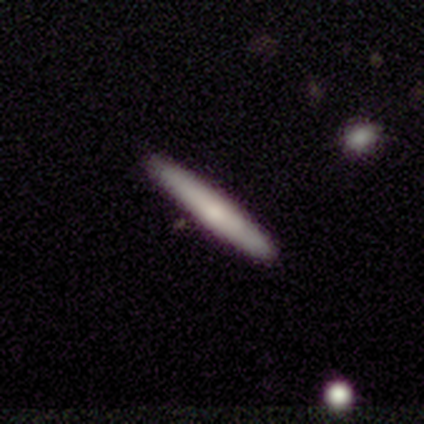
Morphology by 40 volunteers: smooth-or-featured: smooth: 80% | featured or disk: 15% | star or artifact: 5%
  how-rounded: cigar-shaped: 94% | round: 3% | in between: 3%
  merging: none: 89% | minor disturbance: 8% | merger: 3% | major disturbance: 0%